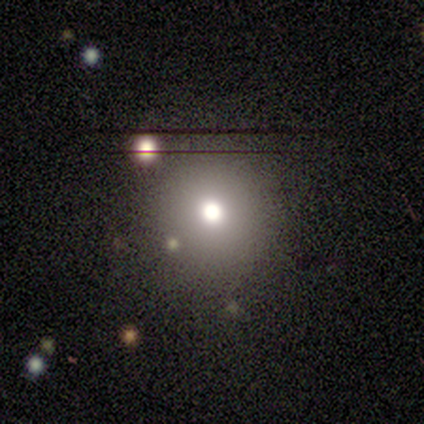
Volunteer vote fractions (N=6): Smooth or featured? 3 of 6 (50%) said star or artifact.